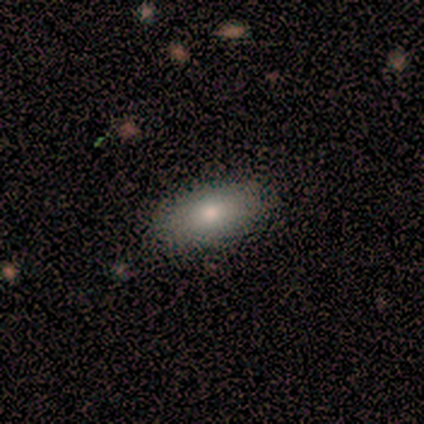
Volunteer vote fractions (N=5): Smooth or featured?
  - smooth: 100% *
  - featured or disk: 0%
  - star or artifact: 0%
How rounded?
  - in between: 100% *
  - round: 0%
  - cigar-shaped: 0%
Merging?
  - none: 100% *
  - minor disturbance: 0%
  - major disturbance: 0%
  - merger: 0%